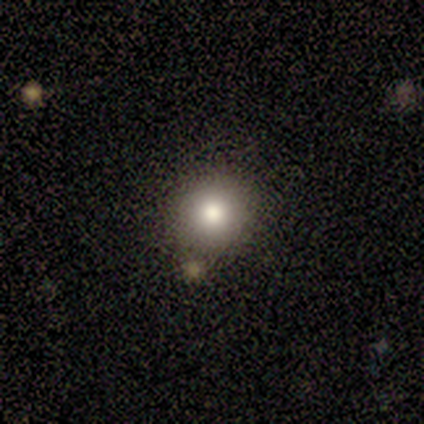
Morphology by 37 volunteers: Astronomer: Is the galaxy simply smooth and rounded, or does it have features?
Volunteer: smooth — 76%.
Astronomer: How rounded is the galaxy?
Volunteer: round — 96%.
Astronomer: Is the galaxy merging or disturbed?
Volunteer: none — 88%.